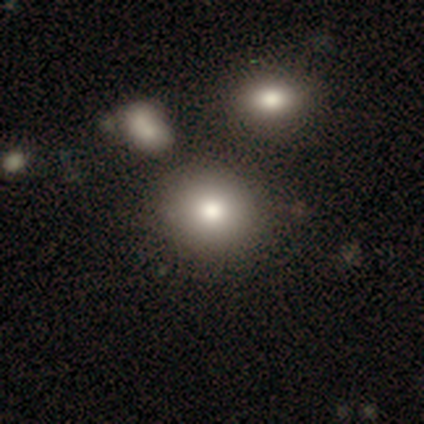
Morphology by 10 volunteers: Q: Smooth or featured?
A: smooth (70%); runner-up: featured or disk (20%)
Q: How rounded?
A: in between (57%); runner-up: round (43%)
Q: Merging?
A: none (67%); runner-up: minor disturbance (22%)